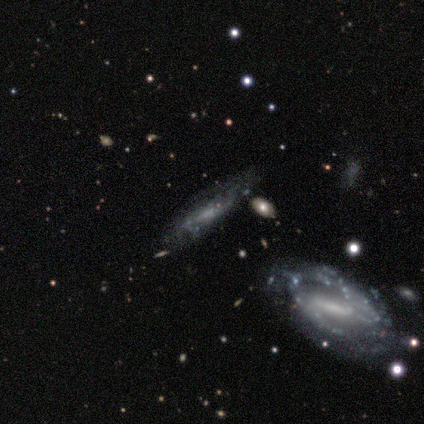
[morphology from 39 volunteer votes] Smooth or featured? featured or disk (74%)
Edge-on disk? yes (52%)
Edge-on bulge? none (80%)
Merging? none (66%)